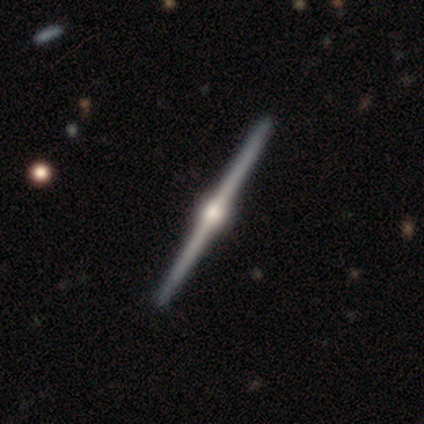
Smooth or featured?
  - featured or disk: 88% *
  - smooth: 12%
  - star or artifact: 0%
Edge-on disk?
  - yes: 100% *
  - no: 0%
Edge-on bulge?
  - rounded: 100% *
  - boxy: 0%
  - none: 0%
Merging?
  - none: 75% *
  - minor disturbance: 12%
  - major disturbance: 12%
  - merger: 0%